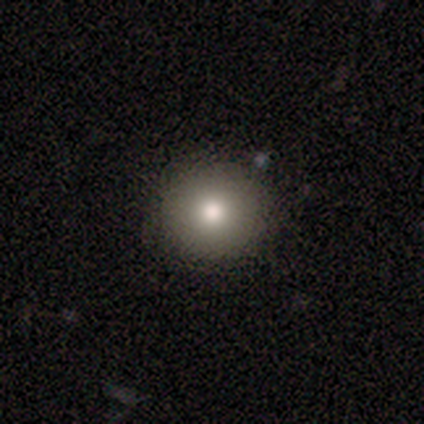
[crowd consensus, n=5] This appears to be a smooth galaxy with no disk features (100%) that is round (100%). Merging: none (100%).